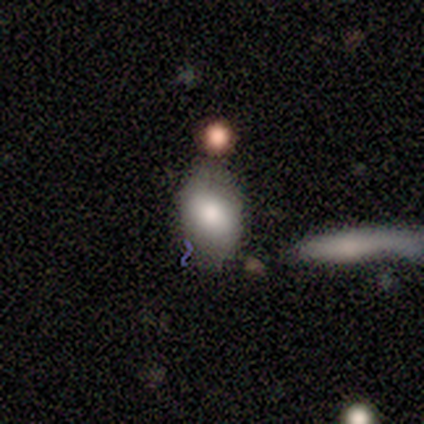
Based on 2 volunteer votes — Smooth or featured? 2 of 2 (100%) said smooth. How rounded? 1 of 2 (50%, tied with in between) said round. Merging? 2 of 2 (100%) said none.